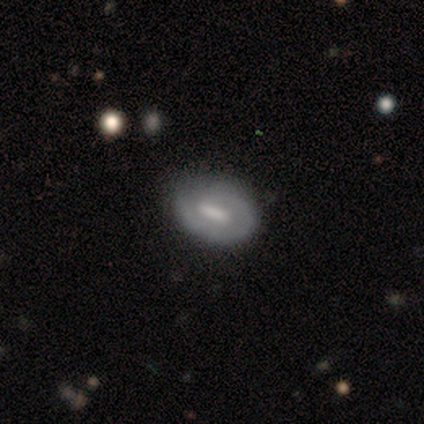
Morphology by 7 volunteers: Smooth or featured?
  - featured or disk: 57% *
  - smooth: 43%
  - star or artifact: 0%
Edge-on disk?
  - no: 100% *
  - yes: 0%
Bar?
  - strong: 75% *
  - no: 25%
  - weak: 0%
Spiral arms?
  - no: 75% *
  - yes: 25%
Bulge size?
  - moderate: 50% * (tied)
  - none: 50% * (tied)
  - dominant: 0%
  - large: 0%
  - small: 0%
Merging?
  - none: 86% *
  - major disturbance: 14%
  - minor disturbance: 0%
  - merger: 0%